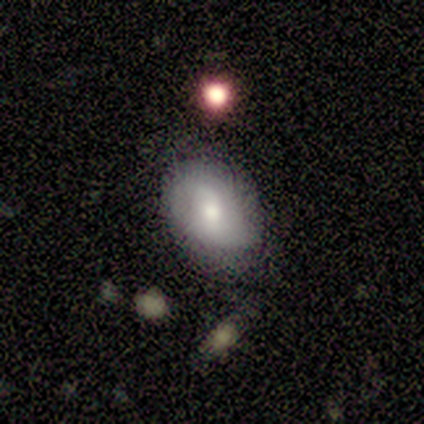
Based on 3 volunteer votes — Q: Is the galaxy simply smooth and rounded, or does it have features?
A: smooth — 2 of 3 (67%).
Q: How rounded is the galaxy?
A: in between — 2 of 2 (100%).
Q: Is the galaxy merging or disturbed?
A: none — 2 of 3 (67%).